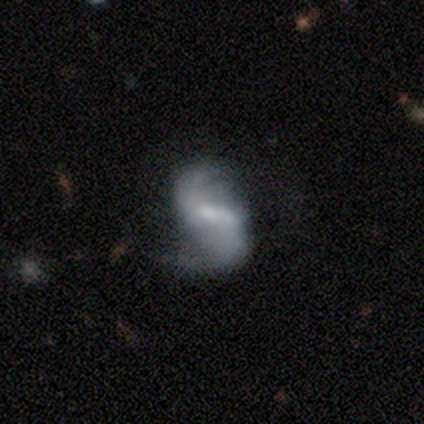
This is clearly a featured or disk galaxy (100%). It is clearly not viewed edge-on (80%). Bar: likely weak (75%). Spiral arm pattern: clearly yes (100%). Spiral arm count: clearly 2 (100%). Spiral winding: likely loose (75%). Central bulge: possibly small (50%). Merging: marginally none (40%, tied with major disturbance).